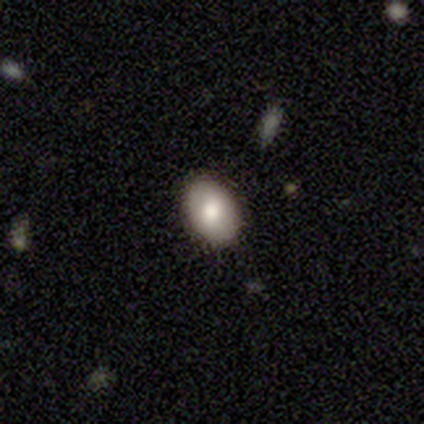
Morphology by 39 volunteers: Volunteers were most divided on "how rounded": in between: 82%, round: 18%, cigar-shaped: 0%. More confident: smooth or featured — smooth (87%); merging — none (85%).